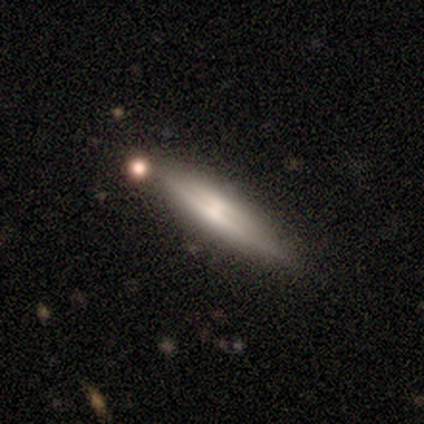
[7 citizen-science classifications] Smooth or featured? featured or disk (86%)
Edge-on disk? yes (83%)
Edge-on bulge? rounded (60%)
Merging? none (100%)